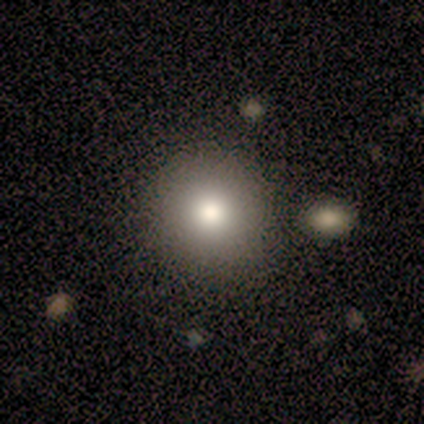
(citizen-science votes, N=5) This is clearly a smooth galaxy (100%). How rounded: clearly round (100%). Merging: clearly none (100%).